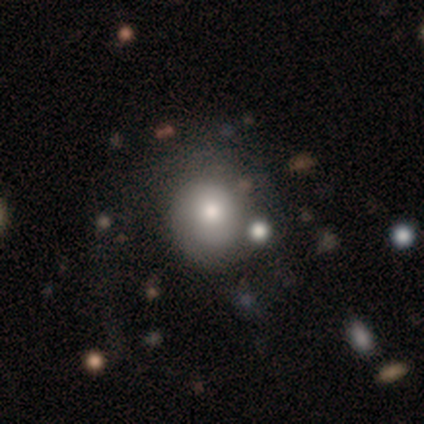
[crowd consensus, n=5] smooth-or-featured: smooth: 60% | featured or disk: 40% | star or artifact: 0%
  how-rounded: round: 67% | in between: 33% | cigar-shaped: 0%
  merging: none: 60% | minor disturbance: 40% | major disturbance: 0% | merger: 0%